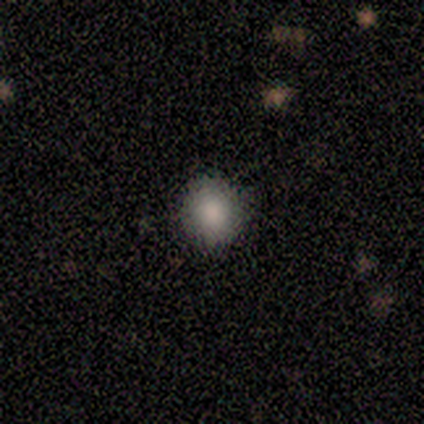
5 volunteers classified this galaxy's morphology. Volunteers were most divided on "how rounded": round: 80%, in between: 20%, cigar-shaped: 0%. More confident: smooth or featured — smooth (100%); merging — none (100%).